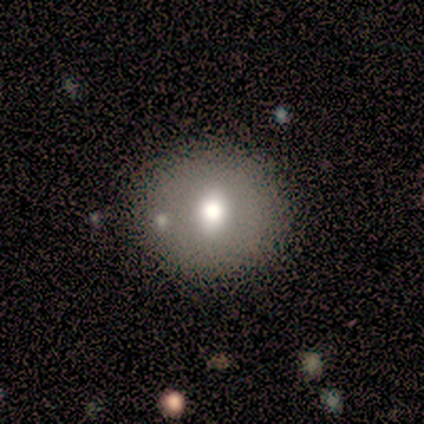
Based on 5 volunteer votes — Overall: smooth (40%, tied with featured or disk). How rounded: round (100%). Merging: none (75%).